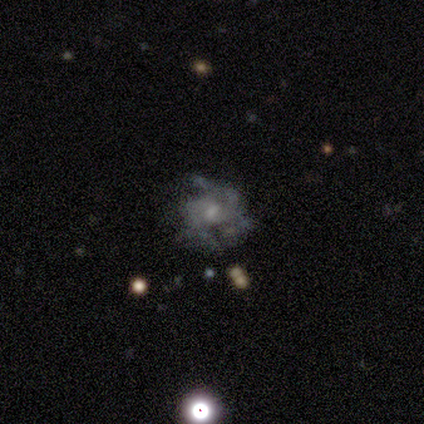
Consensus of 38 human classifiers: smooth_or_featured: featured or disk (p=0.74) [alt: smooth p=0.16]
disk_edge_on: no (p=0.96) [alt: yes p=0.04]
bar: no (p=0.59) [alt: weak p=0.41]
has_spiral_arms: yes (p=0.63) [alt: no p=0.37]
spiral_winding: medium (p=0.65) [alt: tight p=0.29]
spiral_arm_count: can't tell (p=0.35) [alt: 2 p=0.29]
bulge_size: small (p=0.59) [alt: moderate p=0.26]
merging: none (p=0.44) [alt: major disturbance p=0.26]